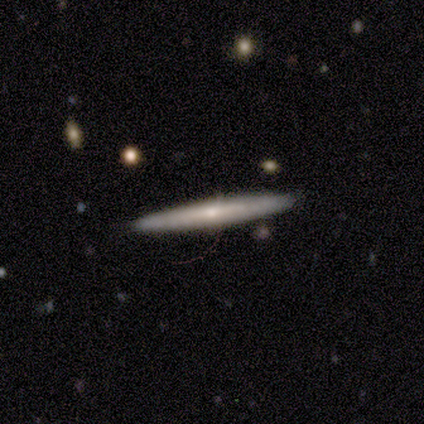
A featured or disk galaxy (60%) viewed edge-on (100%) with a rounded central bulge (100%).

Vote fractions:
- Smooth or featured? featured or disk: 60% / smooth: 20% / star or artifact: 20%
- Edge-on disk? yes: 100% / no: 0%
- Edge-on bulge? rounded: 100% / boxy: 0% / none: 0%
- Merging? none: 100% / minor disturbance: 0% / major disturbance: 0% / merger: 0%